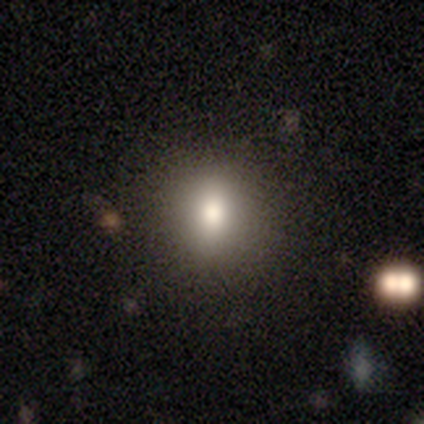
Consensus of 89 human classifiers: smooth-or-featured: smooth: 72% | star or artifact: 17% | featured or disk: 11%
  how-rounded: round: 67% | in between: 30% | cigar-shaped: 3%
  merging: none: 91% | minor disturbance: 8% | major disturbance: 1% | merger: 0%